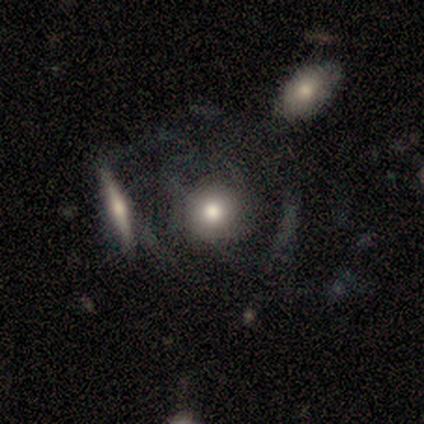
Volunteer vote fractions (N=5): Smooth or featured: smooth — 60% (featured or disk — 40%)
How rounded: round — 100%
Merging: none — 40% (tied with merger — 40%)